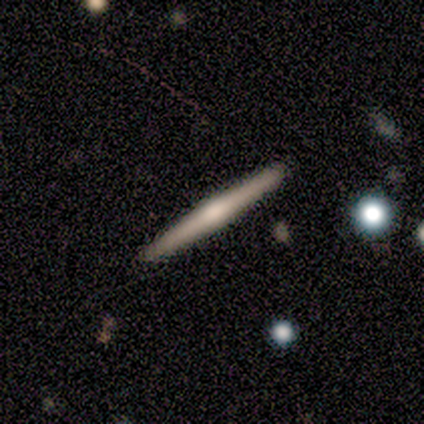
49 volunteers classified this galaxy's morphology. Smooth or featured?
  - featured or disk: 65% *
  - smooth: 35%
  - star or artifact: 0%
Edge-on disk?
  - yes: 97% *
  - no: 3%
Edge-on bulge?
  - rounded: 87% *
  - none: 13%
  - boxy: 0%
Merging?
  - none: 90% *
  - minor disturbance: 6%
  - major disturbance: 2%
  - merger: 2%